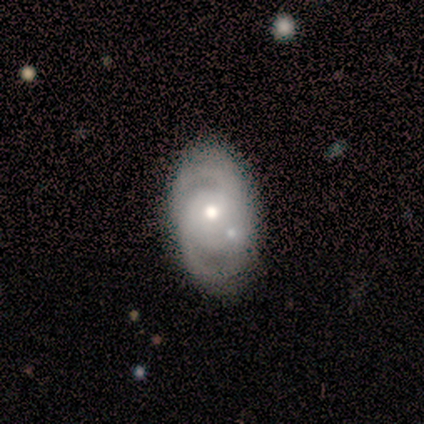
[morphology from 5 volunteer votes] This appears to be a featured or disk galaxy (60%) with a weak bar (50%, tied with no), 2 (50%, tied with can't tell) tight (50%, tied with medium) spiral arms (100%) and a moderate central bulge (50%, tied with small). Merging: none (50%).